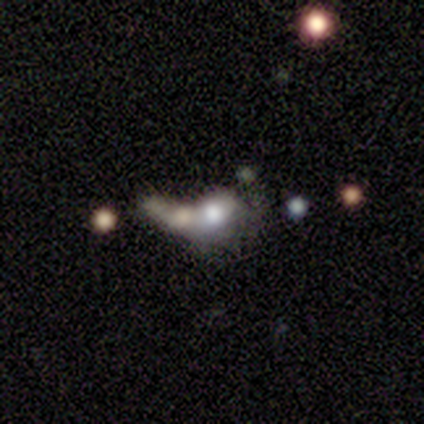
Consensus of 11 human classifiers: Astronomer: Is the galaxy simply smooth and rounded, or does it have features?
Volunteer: smooth — 45% (runner-up: featured or disk, 36%).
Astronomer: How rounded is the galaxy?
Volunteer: in between — 100%.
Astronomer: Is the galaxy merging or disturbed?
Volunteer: merger — 78%.